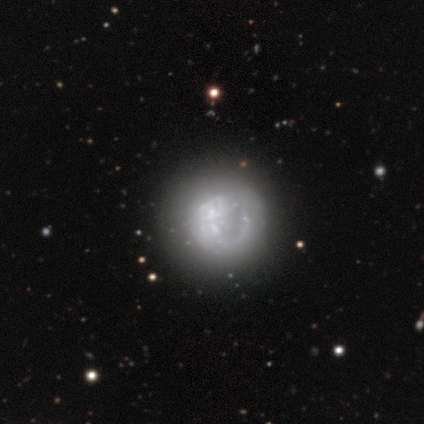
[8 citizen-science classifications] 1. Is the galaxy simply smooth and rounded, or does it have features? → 50% featured or disk, 38% smooth, 12% star or artifact.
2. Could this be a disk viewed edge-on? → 75% no, 25% yes.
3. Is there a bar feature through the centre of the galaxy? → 100% no, 0% strong, 0% weak.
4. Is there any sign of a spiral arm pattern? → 67% no, 33% yes.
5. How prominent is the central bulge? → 67% large, 33% moderate, 0% dominant, 0% small, 0% none.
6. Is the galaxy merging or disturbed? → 57% none, 43% major disturbance, 0% minor disturbance, 0% merger.